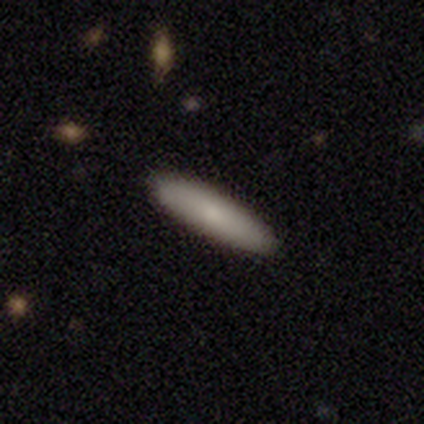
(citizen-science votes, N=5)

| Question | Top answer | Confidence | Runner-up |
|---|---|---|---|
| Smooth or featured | smooth | 100% | — |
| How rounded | cigar-shaped | 80% | in between (20%) |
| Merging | none | 100% | — |